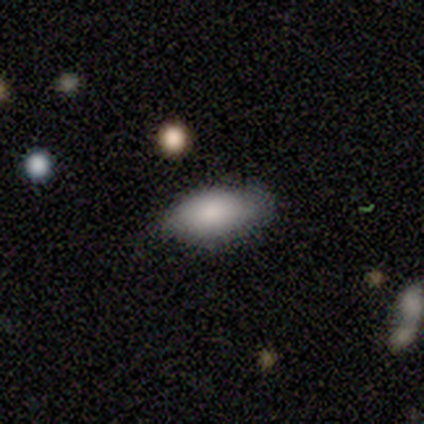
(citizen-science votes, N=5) Morphology: type=smooth (60%); roundness=in between (100%); merging=minor disturbance (60%).